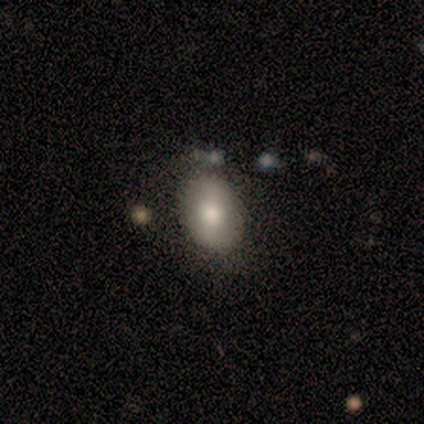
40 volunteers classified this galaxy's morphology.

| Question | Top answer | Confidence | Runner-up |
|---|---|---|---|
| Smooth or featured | smooth | 78% | star or artifact (12%) |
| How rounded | in between | 61% | round (39%) |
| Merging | none | 63% | merger (9%) |